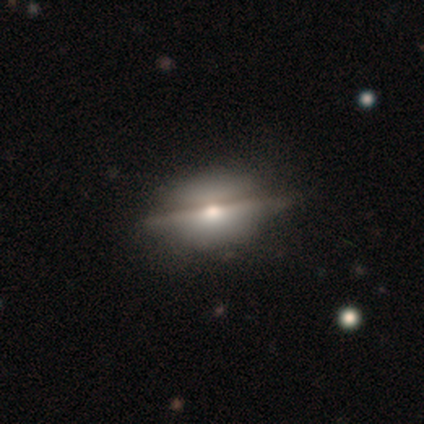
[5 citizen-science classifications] This is likely a featured or disk galaxy (60%). It is likely viewed edge-on (67%). Edge-on bulge: clearly rounded (100%). Merging: clearly none (100%).